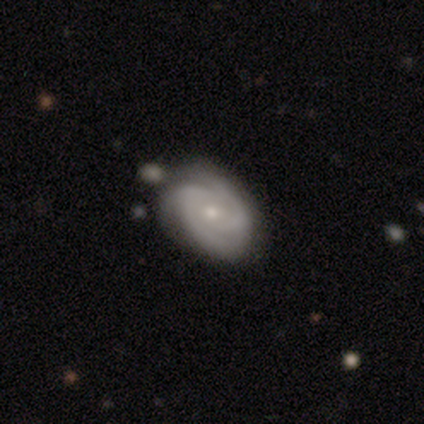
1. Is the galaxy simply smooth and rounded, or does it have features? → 85% featured or disk, 10% smooth, 4% star or artifact.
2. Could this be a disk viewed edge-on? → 95% no, 5% yes.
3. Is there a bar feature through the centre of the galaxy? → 74% no, 26% weak, 0% strong.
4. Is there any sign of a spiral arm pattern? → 100% yes, 0% no.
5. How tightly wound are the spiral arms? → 54% tight, 41% medium, 5% loose.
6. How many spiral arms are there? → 46% 2, 44% 3, 10% can't tell, 0% 1, 0% 4, 0% more than 4.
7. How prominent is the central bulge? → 59% small, 31% moderate, 8% none, 3% dominant, 0% large.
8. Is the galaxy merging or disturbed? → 76% none, 11% minor disturbance, 7% major disturbance, 7% merger.